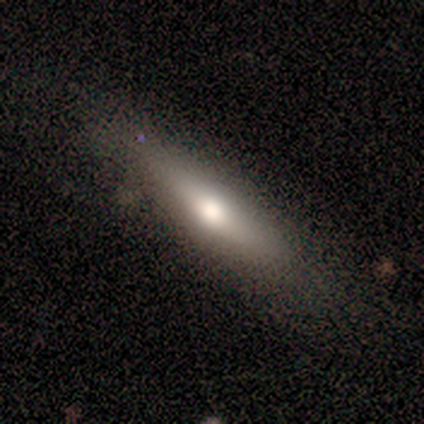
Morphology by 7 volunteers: smooth 86%, featured or disk 14%, star or artifact 0%. Down the decision tree: how rounded — cigar-shaped (67%); merging — none (71%).